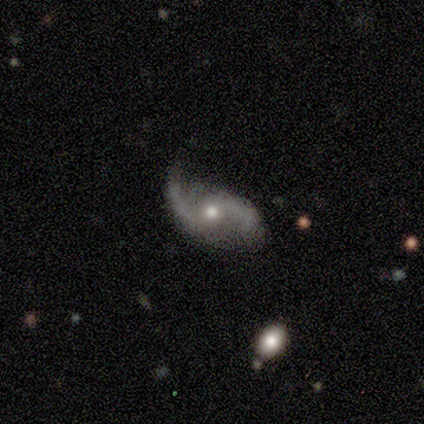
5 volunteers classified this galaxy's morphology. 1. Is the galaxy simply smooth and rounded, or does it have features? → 100% featured or disk, 0% smooth, 0% star or artifact.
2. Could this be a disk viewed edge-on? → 100% no, 0% yes.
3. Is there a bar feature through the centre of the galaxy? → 80% no, 20% weak, 0% strong.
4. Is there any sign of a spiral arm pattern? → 100% yes, 0% no.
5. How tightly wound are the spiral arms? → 80% loose, 20% medium, 0% tight.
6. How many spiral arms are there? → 100% 2, 0% 1, 0% 3, 0% 4, 0% more than 4, 0% can't tell.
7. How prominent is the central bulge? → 100% moderate, 0% dominant, 0% large, 0% small, 0% none.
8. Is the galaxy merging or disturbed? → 80% none, 20% minor disturbance, 0% major disturbance, 0% merger.